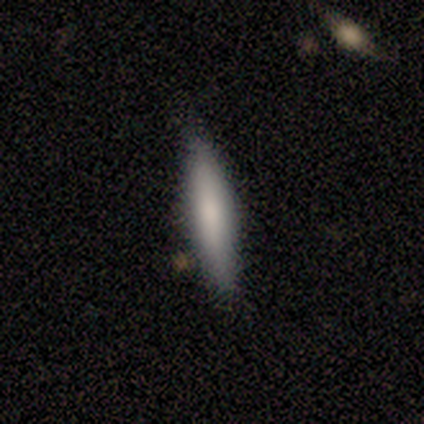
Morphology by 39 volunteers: smooth 77%, featured or disk 18%, star or artifact 5%. Down the decision tree: how rounded — cigar-shaped (90%); merging — none (81%).